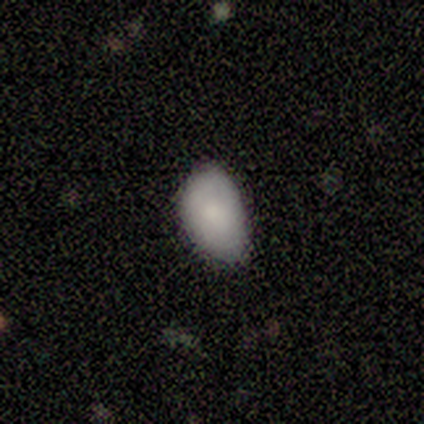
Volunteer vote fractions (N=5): Smooth or featured?
  - smooth: 80% *
  - featured or disk: 20%
  - star or artifact: 0%
How rounded?
  - in between: 75% *
  - round: 25%
  - cigar-shaped: 0%
Merging?
  - none: 60% *
  - minor disturbance: 40%
  - major disturbance: 0%
  - merger: 0%